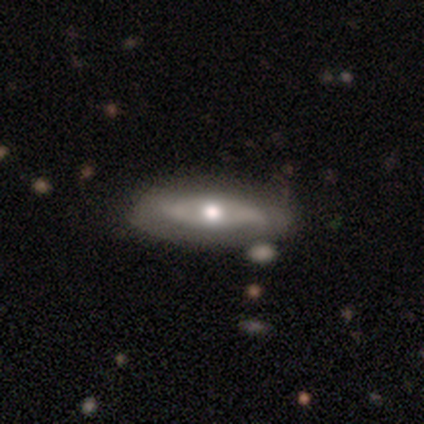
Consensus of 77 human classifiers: A featured or disk galaxy (62%) with no bar (83%), no spiral arms (72%) and a moderate central bulge (76%). Merging: none (36%).